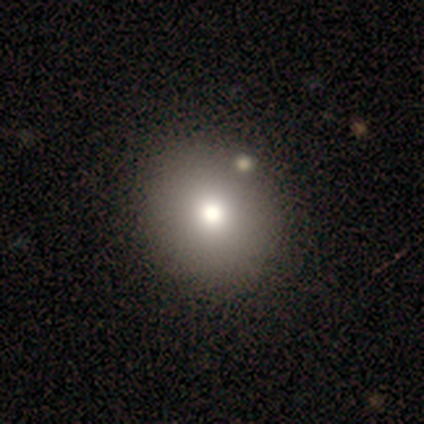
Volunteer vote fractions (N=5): This is likely a smooth galaxy (60%). How rounded: clearly round (100%). Merging: clearly none (100%).